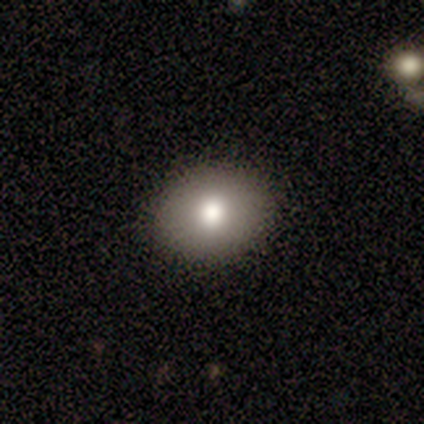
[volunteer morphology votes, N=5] Q: Smooth or featured?
A: smooth (60%); runner-up: featured or disk (20%)
Q: How rounded?
A: in between (67%); runner-up: round (33%)
Q: Merging?
A: none (100%)